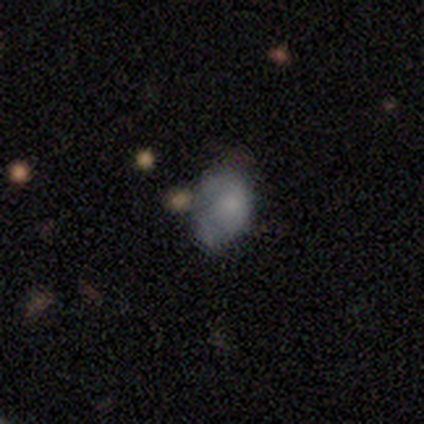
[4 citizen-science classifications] A smooth galaxy with no disk features (50%) that is in between round and cigar-shaped (100%).

Vote fractions:
- Smooth or featured? smooth: 50% / featured or disk: 25% / star or artifact: 25%
- How rounded? in between: 100% / round: 0% / cigar-shaped: 0%
- Merging? minor disturbance: 67% / none: 33% / major disturbance: 0% / merger: 0%